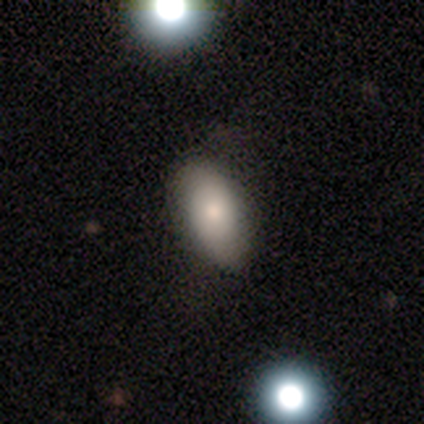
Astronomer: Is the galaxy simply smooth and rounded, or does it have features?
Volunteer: smooth — 81%.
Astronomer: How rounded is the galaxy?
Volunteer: in between — 90%.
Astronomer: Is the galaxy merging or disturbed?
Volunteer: none — 76%.